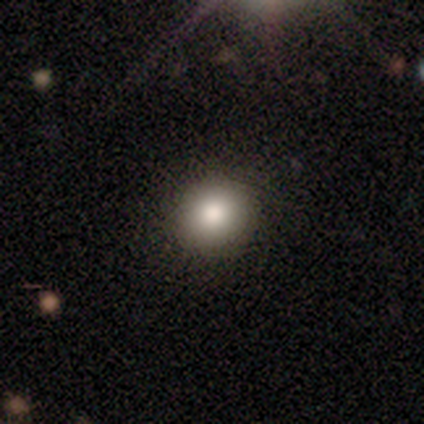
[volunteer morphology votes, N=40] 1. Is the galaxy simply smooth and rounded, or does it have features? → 88% smooth, 8% featured or disk, 5% star or artifact.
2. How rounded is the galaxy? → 91% round, 9% in between, 0% cigar-shaped.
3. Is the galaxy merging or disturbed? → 63% none, 3% major disturbance, 0% minor disturbance, 0% merger.